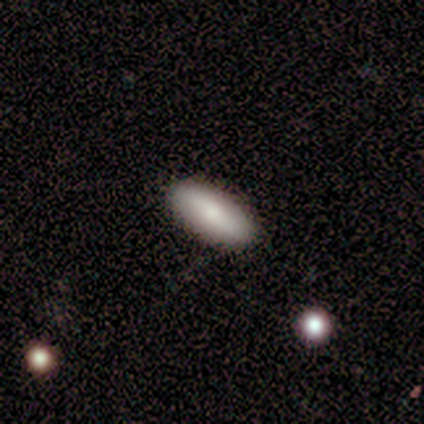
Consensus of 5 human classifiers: Q: Smooth or featured?
A: smooth (80%); runner-up: featured or disk (20%)
Q: How rounded?
A: in between (50%); tied with: cigar-shaped (50%)
Q: Merging?
A: none (100%)